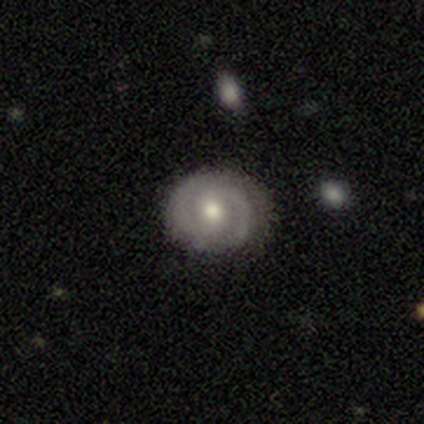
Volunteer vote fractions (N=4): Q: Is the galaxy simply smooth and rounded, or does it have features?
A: smooth — 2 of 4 (50%, tied with featured or disk).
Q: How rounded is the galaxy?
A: round — 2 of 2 (100%).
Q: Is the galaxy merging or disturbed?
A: none — 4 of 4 (100%).